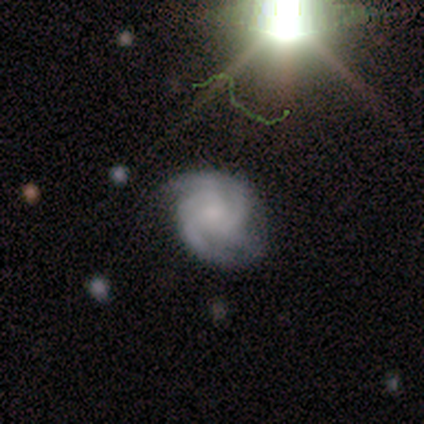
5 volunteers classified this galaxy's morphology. Smooth or featured: featured or disk — 100%
Edge-on disk: no — 100%
Bar: no — 60% (weak — 40%)
Spiral arms: yes — 100%
Spiral winding: tight — 80% (medium — 20%)
Spiral arm count: 3 — 60% (4 — 40%)
Bulge size: small — 60% (moderate — 20%)
Merging: none — 60% (minor disturbance — 40%)